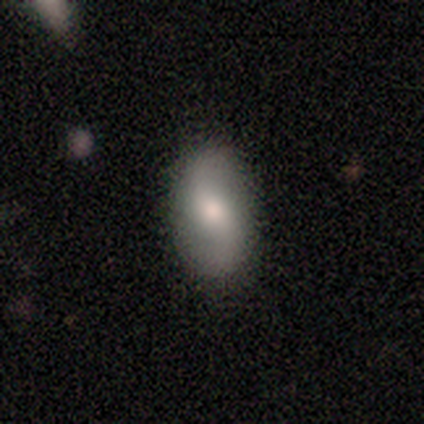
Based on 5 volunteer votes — This appears to be a featured or disk galaxy (80%) with a weak bar (50%), 2 (100%) loose (100%) spiral arms (75%) and a moderate central bulge (50%). Merging: none (100%).